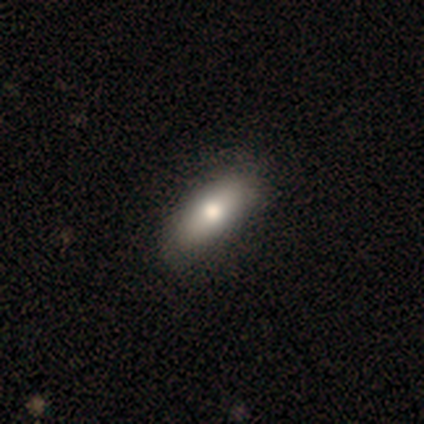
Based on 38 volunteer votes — This is clearly a smooth galaxy (82%). How rounded: clearly in between (81%). Merging: marginally none (38%).